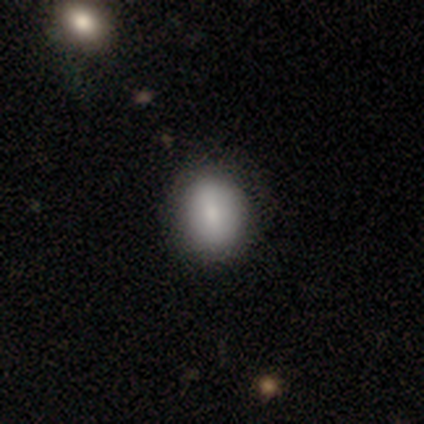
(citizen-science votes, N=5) Smooth or featured? smooth (80%)
How rounded? round (50%, tied with in between)
Merging? none (80%)